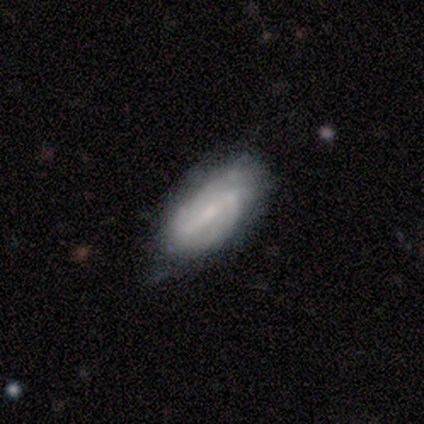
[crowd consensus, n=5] Smooth or featured: featured or disk — 100%
Edge-on disk: no — 100%
Bar: strong — 60% (weak — 20%)
Spiral arms: yes — 80% (no — 20%)
Spiral winding: medium — 50% (tight — 25%)
Spiral arm count: 2 — 100%
Bulge size: moderate — 40% (tied with none — 40%)
Merging: minor disturbance — 60% (none — 40%)